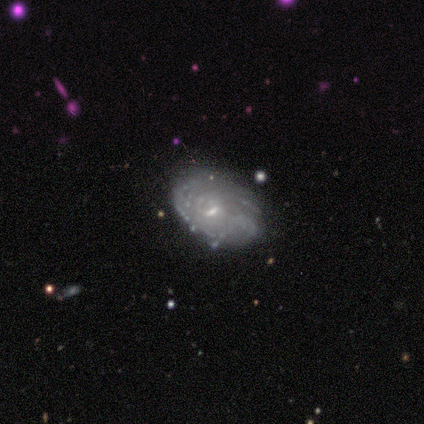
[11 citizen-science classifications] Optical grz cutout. It shows a featured or disk galaxy (91%) with a weak bar (50%, tied with no), tight (62%) spiral arms (80%) and a small central bulge (60%). Merging: none (91%).